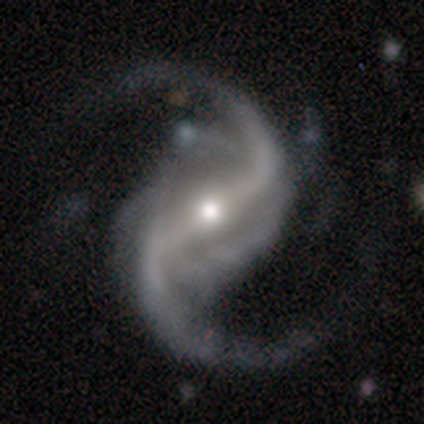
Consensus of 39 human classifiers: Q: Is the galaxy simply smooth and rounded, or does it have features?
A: featured or disk — 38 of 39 (97%).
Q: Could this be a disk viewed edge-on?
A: no — 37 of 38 (97%).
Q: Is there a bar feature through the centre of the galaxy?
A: strong — 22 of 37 (59%).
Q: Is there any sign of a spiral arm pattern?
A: yes — 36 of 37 (97%).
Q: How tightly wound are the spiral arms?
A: loose — 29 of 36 (81%).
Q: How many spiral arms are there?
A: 2 — 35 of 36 (97%).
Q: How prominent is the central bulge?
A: moderate — 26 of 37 (70%).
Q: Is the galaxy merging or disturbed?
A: none — 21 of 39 (54%).